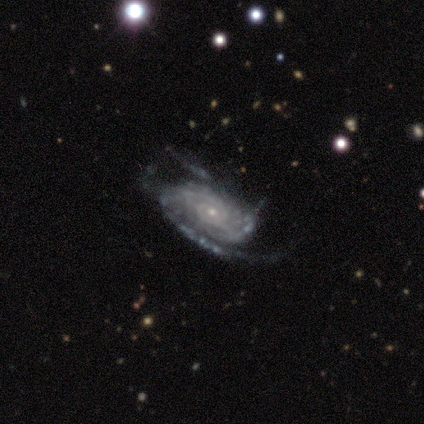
Smooth or featured: featured or disk — 100%
Edge-on disk: no — 100%
Bar: no — 60% (strong — 40%)
Spiral arms: yes — 100%
Spiral winding: medium — 60% (tight — 40%)
Spiral arm count: 1 — 40% (2 — 20%)
Bulge size: small — 60% (dominant — 20%)
Merging: none — 80% (minor disturbance — 20%)